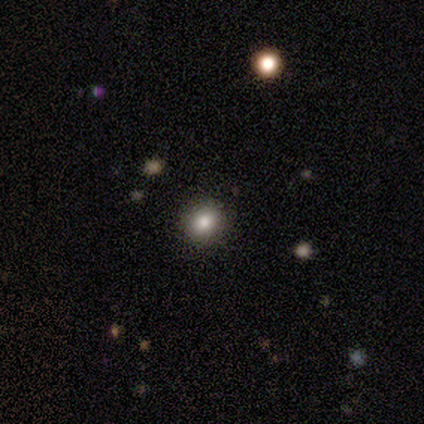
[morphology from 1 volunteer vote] A smooth galaxy with no disk features (100%) that is round (100%). Merging: none (100%).